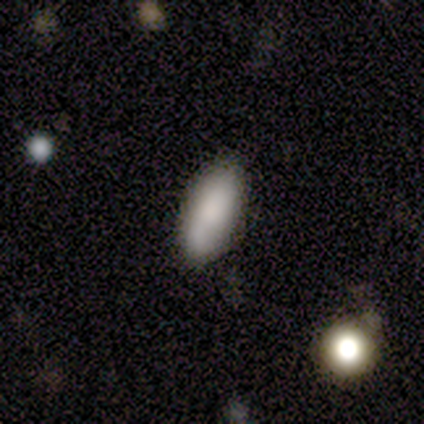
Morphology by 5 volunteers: This appears to be a smooth galaxy with no disk features (100%) that is in between round and cigar-shaped (80%). Merging: none (80%).